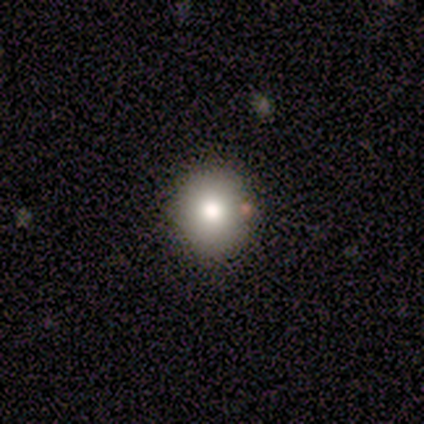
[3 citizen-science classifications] A smooth galaxy with no disk features (100%) that is round (67%).

Vote fractions:
- Smooth or featured? smooth: 100% / featured or disk: 0% / star or artifact: 0%
- How rounded? round: 67% / in between: 33% / cigar-shaped: 0%
- Merging? none: 100% / minor disturbance: 0% / major disturbance: 0% / merger: 0%